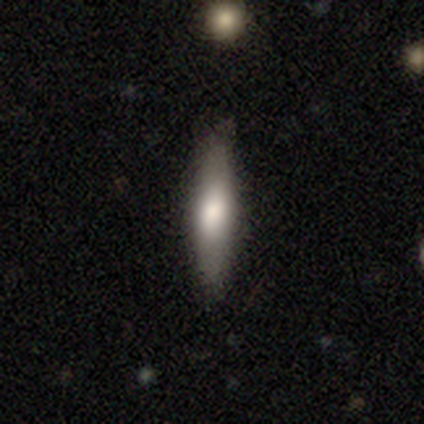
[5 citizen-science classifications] Smooth or featured? smooth (60%)
How rounded? cigar-shaped (100%)
Merging? none (75%)